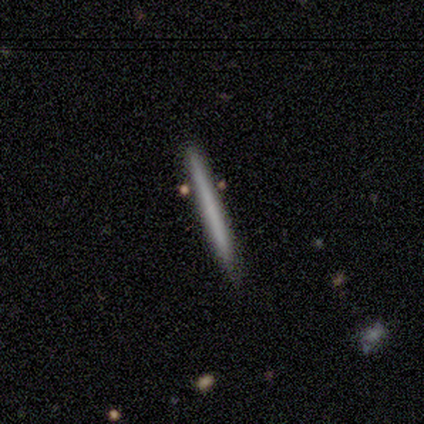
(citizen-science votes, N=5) Smooth or featured? 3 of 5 (60%) said smooth. How rounded? 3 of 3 (100%) said cigar-shaped. Merging? 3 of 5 (60%) said minor disturbance.